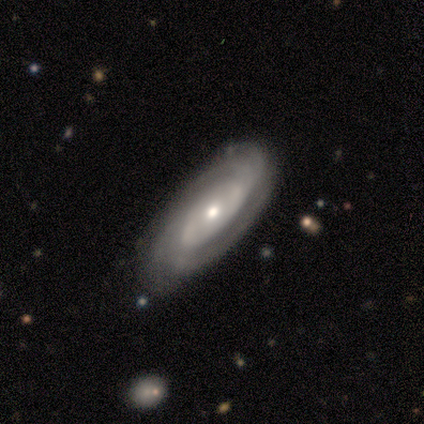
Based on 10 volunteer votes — This is clearly a featured or disk galaxy (80%). It is clearly not viewed edge-on (88%). Bar: possibly no (57%). Spiral arm pattern: clearly yes (100%). Spiral arm count: marginally 2 (43%). Spiral winding: likely tight (71%). Central bulge: likely moderate (71%). Merging: likely none (60%).